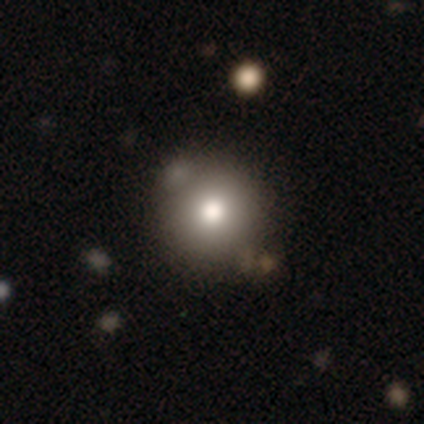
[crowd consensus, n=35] smooth_or_featured: smooth (p=0.77) [alt: featured or disk p=0.17]
how_rounded: round (p=0.96) [alt: in between p=0.04]
merging: none (p=0.70) [alt: minor disturbance p=0.21]